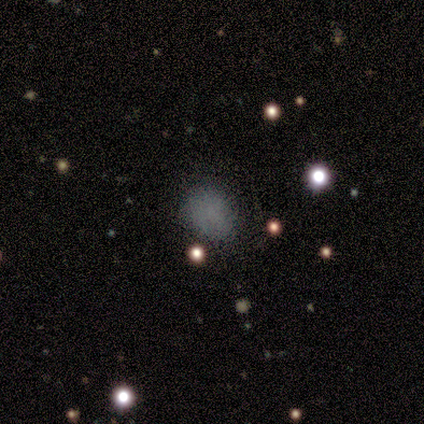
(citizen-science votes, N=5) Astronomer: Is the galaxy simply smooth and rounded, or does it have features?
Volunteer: smooth — 60%.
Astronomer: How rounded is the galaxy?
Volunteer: in between — 67%.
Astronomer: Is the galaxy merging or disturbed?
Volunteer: none — 50%.